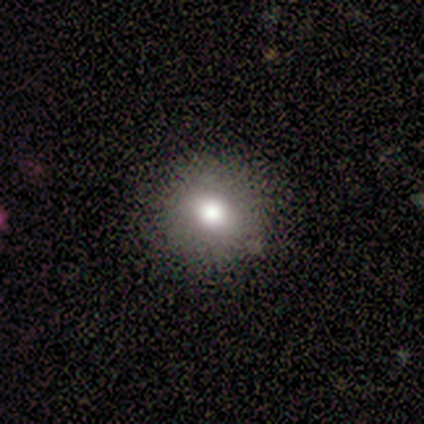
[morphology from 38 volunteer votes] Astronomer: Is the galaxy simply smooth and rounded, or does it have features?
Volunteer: smooth — 68%.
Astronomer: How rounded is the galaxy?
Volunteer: round — 69%.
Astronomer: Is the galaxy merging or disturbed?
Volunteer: none — 93%.